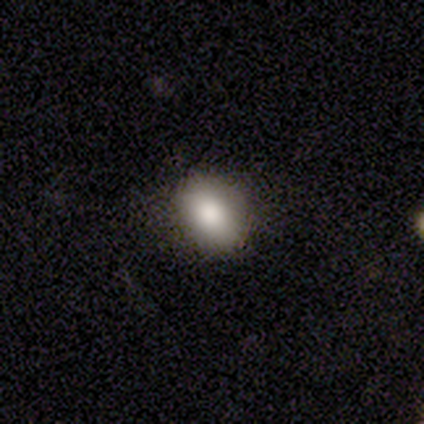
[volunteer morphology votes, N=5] smooth 100%, featured or disk 0%, star or artifact 0%. Down the decision tree: how rounded — round (60%); merging — none (60%).